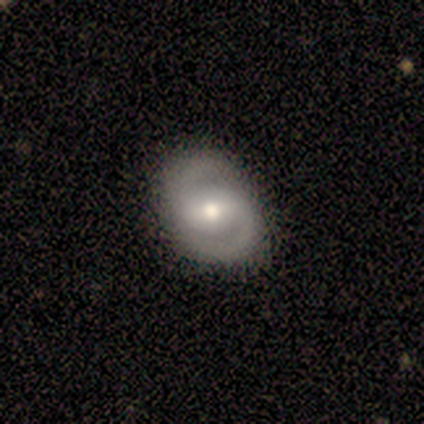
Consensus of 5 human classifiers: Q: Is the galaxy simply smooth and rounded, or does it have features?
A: featured or disk — 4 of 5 (80%).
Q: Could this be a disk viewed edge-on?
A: no — 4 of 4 (100%).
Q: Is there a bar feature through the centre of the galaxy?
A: strong — 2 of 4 (50%, tied with weak).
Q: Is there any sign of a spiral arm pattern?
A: yes — 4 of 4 (100%).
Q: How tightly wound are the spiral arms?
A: medium — 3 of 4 (75%).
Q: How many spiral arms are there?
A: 2 — 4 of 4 (100%).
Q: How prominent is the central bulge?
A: moderate — 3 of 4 (75%).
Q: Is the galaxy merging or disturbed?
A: none — 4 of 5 (80%).